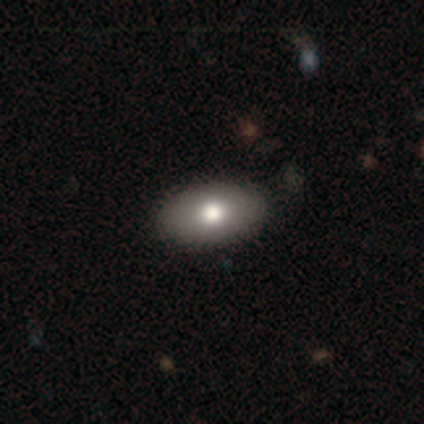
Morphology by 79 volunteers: A smooth galaxy with no disk features (81%) that is in between round and cigar-shaped (88%).

Vote fractions:
- Smooth or featured? smooth: 81% / featured or disk: 14% / star or artifact: 5%
- How rounded? in between: 88% / round: 12% / cigar-shaped: 0%
- Merging? none: 48% / minor disturbance: 3% / major disturbance: 0% / merger: 0%